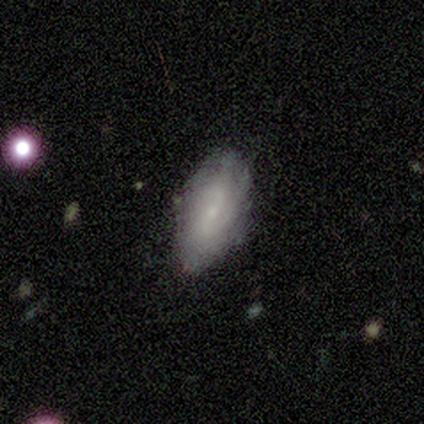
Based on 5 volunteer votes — smooth-or-featured: featured or disk: 60% | smooth: 40% | star or artifact: 0%
  disk-edge-on: no: 100% | yes: 0%
    bar: weak: 67% | strong: 33% | no: 0%
    has-spiral-arms: yes: 100% | no: 0%
      spiral-winding: medium: 100% | tight: 0% | loose: 0%
      spiral-arm-count: 2: 67% | can't tell: 33% | 1: 0% | 3: 0% | 4: 0% | more than 4: 0%
    bulge-size: small: 100% | dominant: 0% | large: 0% | moderate: 0% | none: 0%
  merging: none: 60% | minor disturbance: 20% | major disturbance: 20% | merger: 0%